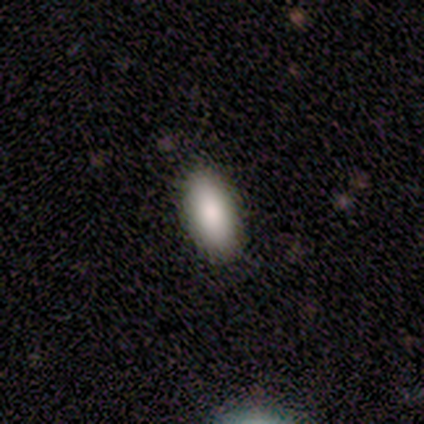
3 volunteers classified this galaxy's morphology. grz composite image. It shows a smooth galaxy with no disk features (100%) that is in between round and cigar-shaped (67%). Merging: none (67%).